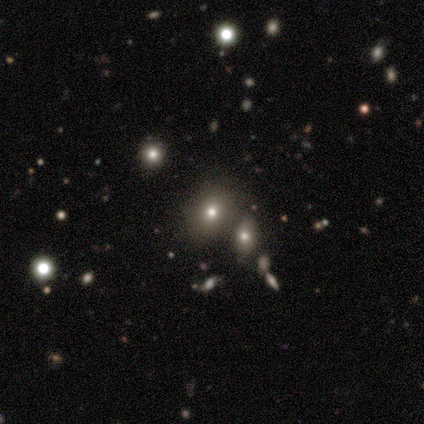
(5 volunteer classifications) Smooth or featured: smooth — 40% (tied with star or artifact — 40%)
How rounded: round — 100%
Merging: merger — 67% (none — 33%)